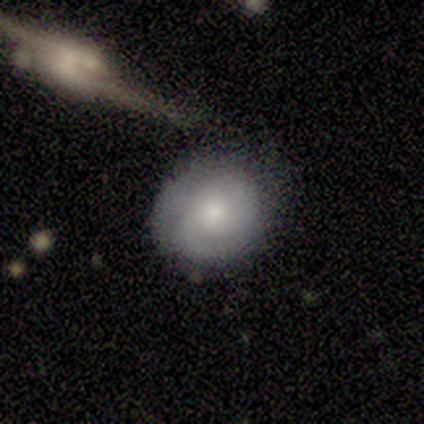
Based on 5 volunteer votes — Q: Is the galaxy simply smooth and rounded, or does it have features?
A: featured or disk — 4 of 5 (80%).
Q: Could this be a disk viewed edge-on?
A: no — 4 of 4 (100%).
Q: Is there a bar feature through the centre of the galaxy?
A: no — 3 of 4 (75%).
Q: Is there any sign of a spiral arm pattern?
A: yes — 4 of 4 (100%).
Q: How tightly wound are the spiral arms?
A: tight — 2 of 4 (50%, tied with medium).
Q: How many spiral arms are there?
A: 2 — 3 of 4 (75%).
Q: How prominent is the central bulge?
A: moderate — 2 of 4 (50%).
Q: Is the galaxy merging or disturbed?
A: none — 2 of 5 (40%, tied with minor disturbance).